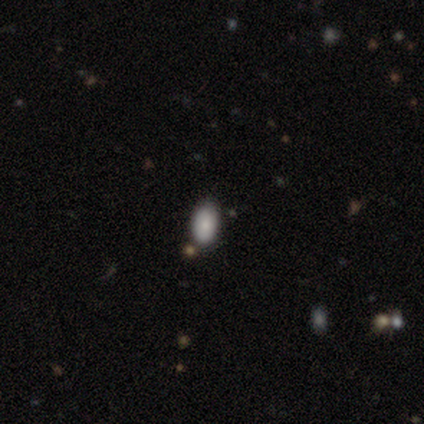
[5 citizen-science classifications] smooth_or_featured: smooth (p=0.60) [alt: featured or disk p=0.20]
how_rounded: in between (p=0.67) [alt: round p=0.33]
merging: none (p=1.00)